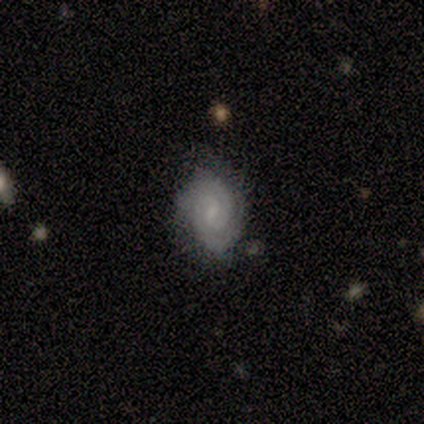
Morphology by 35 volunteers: A featured or disk galaxy (66%) with a weak bar (61%), 2 (50%) tight (64%) spiral arms (96%) and a small central bulge (61%). Merging: none (67%).